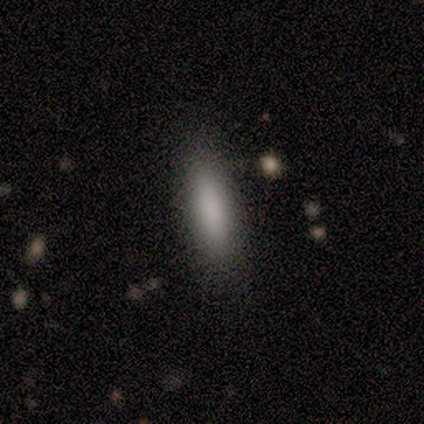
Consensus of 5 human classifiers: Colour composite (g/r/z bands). It shows a smooth galaxy with no disk features (80%) that is in between round and cigar-shaped (50%, tied with cigar-shaped). Merging: none (100%).